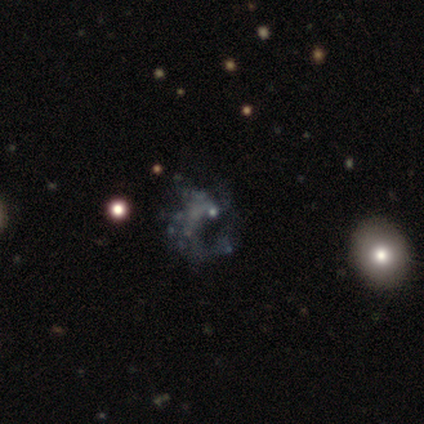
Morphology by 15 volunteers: featured or disk 53%, star or artifact 40%, smooth 7%. Down the decision tree: edge-on disk — no (100%); bar — no (88%); spiral arms — no (62%); bulge size — small (62%); merging — none (44%).